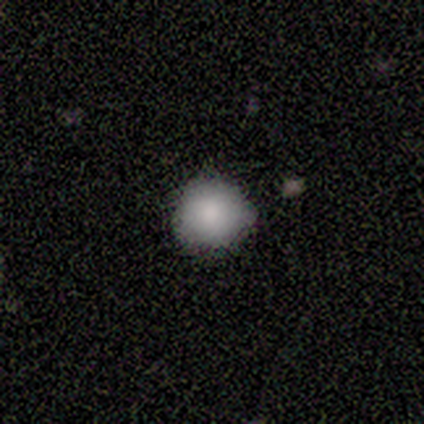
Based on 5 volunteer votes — Smooth or featured: smooth — 80% (star or artifact — 20%)
How rounded: round — 50% (tied with in between — 50%)
Merging: none — 100%